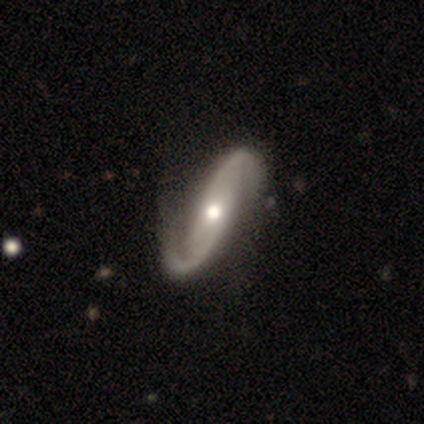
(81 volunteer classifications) Overall: featured or disk (89%). Edge-on disk: no (93%). Bar: no (61%). Spiral arms: yes (100%). Spiral arm count: 2 (100%). Spiral winding: loose (40%; medium 36%). Bulge size: moderate (75%). Merging: none (71%).